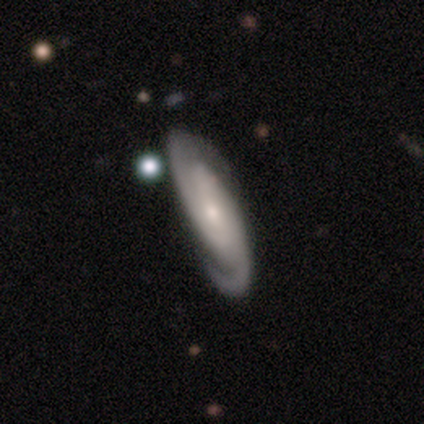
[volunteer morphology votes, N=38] This appears to be a featured or disk galaxy (97%) with no bar (71%), 2 (94%) tight (41%, tied with medium) spiral arms (100%) and a small central bulge (53%). Merging: none (61%).